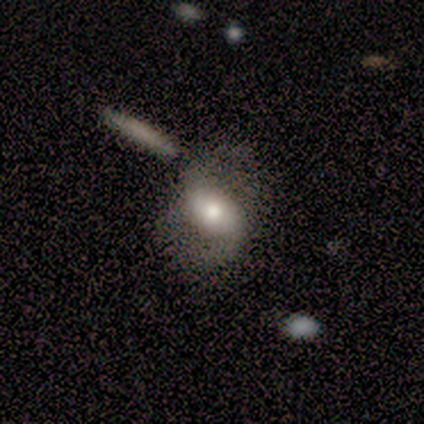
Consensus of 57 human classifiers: Q: Smooth or featured?
A: featured or disk (58%); runner-up: smooth (33%)
Q: Edge-on disk?
A: no (85%); runner-up: yes (15%)
Q: Bar?
A: no (46%); runner-up: strong (29%)
Q: Spiral arms?
A: yes (64%); runner-up: no (36%)
Q: Spiral winding?
A: medium (44%); tied with: loose (44%)
Q: Spiral arm count?
A: 2 (89%); runner-up: 1 (11%)
Q: Bulge size?
A: moderate (46%); runner-up: large (39%)
Q: Merging?
A: none (69%); runner-up: minor disturbance (13%)